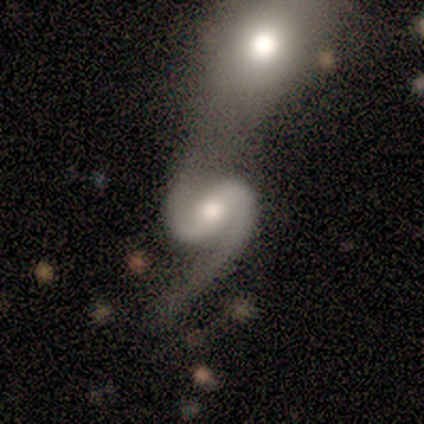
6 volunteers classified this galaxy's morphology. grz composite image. It shows a featured or disk galaxy (100%) with a strong bar (50%), 2 (83%) loose (50%) spiral arms (100%) and a moderate central bulge (100%). Merging: merger (50%).